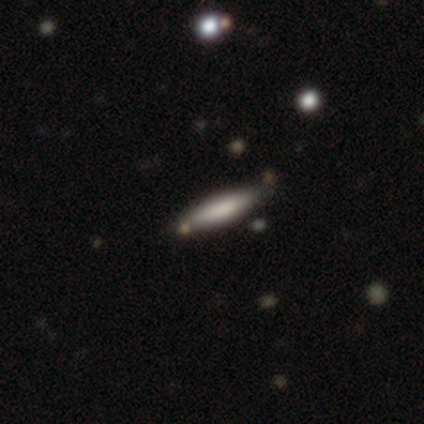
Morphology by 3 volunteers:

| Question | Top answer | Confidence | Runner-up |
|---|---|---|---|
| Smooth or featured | smooth | 100% | — |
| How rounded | cigar-shaped | 67% | in between (33%) |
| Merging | none | 67% | major disturbance (33%) |